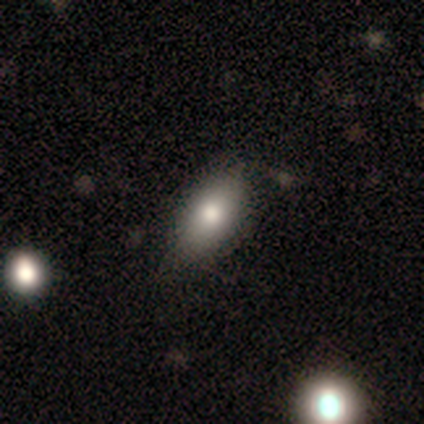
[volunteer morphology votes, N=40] Smooth or featured? smooth (70%)
How rounded? in between (89%)
Merging? none (86%)